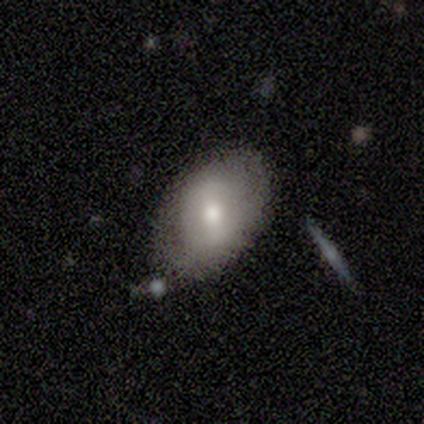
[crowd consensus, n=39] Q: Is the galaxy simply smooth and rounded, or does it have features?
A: smooth — 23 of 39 (59%).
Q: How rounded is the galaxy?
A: in between — 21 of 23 (91%).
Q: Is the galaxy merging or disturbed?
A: none — 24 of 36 (67%).